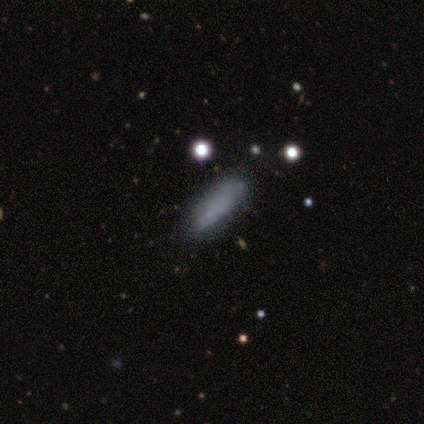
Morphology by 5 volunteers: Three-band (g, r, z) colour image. It shows a smooth galaxy with no disk features (100%) that is cigar-shaped (80%). Merging: none (100%).